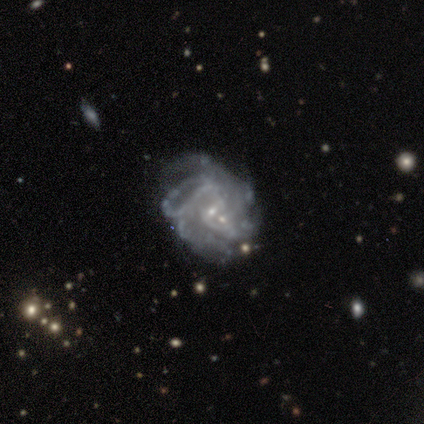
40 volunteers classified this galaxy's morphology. This appears to be a featured or disk galaxy (85%) with a weak bar (44%, tied with no), tight (48%) spiral arms (84%) and a small central bulge (84%). Merging: merger (31%).